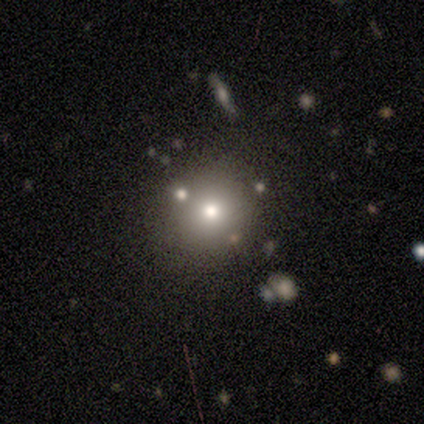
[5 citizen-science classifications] Overall: smooth (60%; featured or disk 20%). How rounded: round (67%; in between 33%). Merging: none (100%).